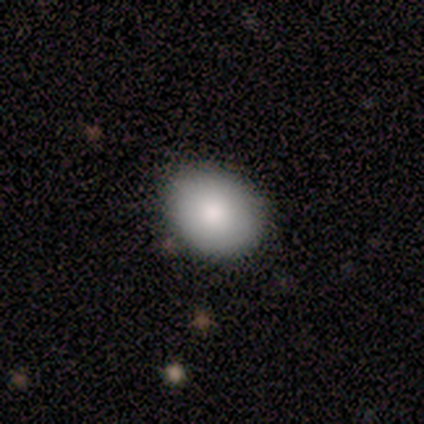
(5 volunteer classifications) smooth 100%, featured or disk 0%, star or artifact 0%. Down the decision tree: how rounded — in between (60%); merging — none (80%).